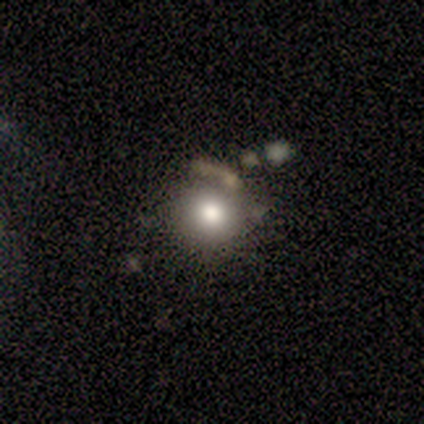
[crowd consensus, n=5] Overall: smooth (100%). How rounded: round (100%). Merging: none (80%).